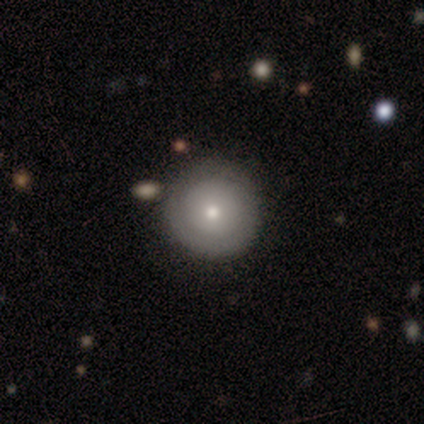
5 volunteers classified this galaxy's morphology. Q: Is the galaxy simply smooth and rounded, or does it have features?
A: smooth — 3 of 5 (60%).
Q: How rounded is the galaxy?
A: round — 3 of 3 (100%).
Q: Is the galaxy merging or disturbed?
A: none — 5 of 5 (100%).